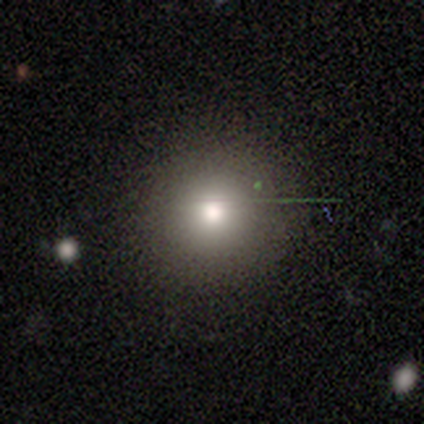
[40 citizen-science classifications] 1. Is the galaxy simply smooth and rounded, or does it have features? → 68% smooth, 18% star or artifact, 15% featured or disk.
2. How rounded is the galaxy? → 96% round, 4% in between, 0% cigar-shaped.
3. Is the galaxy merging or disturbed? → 94% none, 6% minor disturbance, 0% major disturbance, 0% merger.